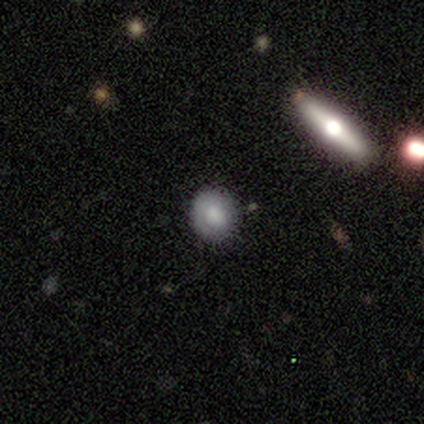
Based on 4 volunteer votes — smooth-or-featured: smooth: 50% (tied) | featured or disk: 50% (tied) | star or artifact: 0%
  how-rounded: round: 100% | in between: 0% | cigar-shaped: 0%
  merging: none: 75% | minor disturbance: 25% | major disturbance: 0% | merger: 0%